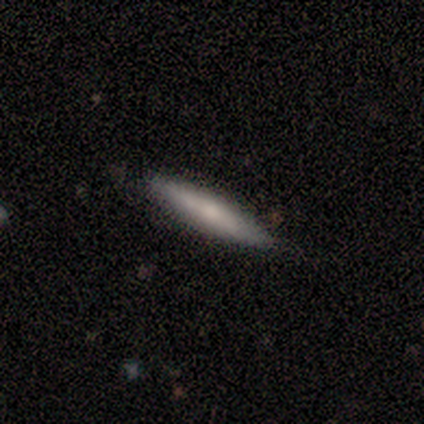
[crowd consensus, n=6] This is clearly a smooth galaxy (83%). How rounded: clearly cigar-shaped (100%). Merging: clearly none (100%).